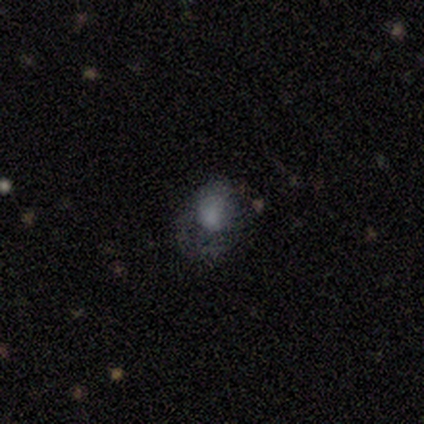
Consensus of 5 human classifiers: smooth-or-featured: smooth: 60% | featured or disk: 40% | star or artifact: 0%
  how-rounded: in between: 67% | round: 33% | cigar-shaped: 0%
  merging: none: 80% | major disturbance: 20% | minor disturbance: 0% | merger: 0%